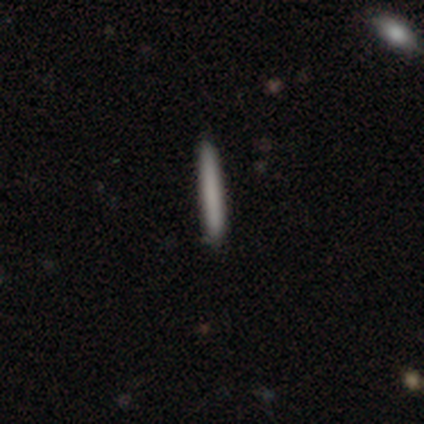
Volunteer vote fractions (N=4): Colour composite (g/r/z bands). It shows a smooth galaxy with no disk features (75%) that is cigar-shaped (100%). Merging: none (75%).